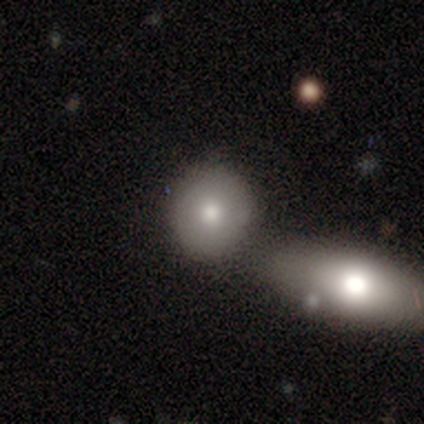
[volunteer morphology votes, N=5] Volunteers were most divided on "how rounded": round: 67%, in between: 33%, cigar-shaped: 0%. More confident: merging — none (75%); smooth or featured — smooth (60%).